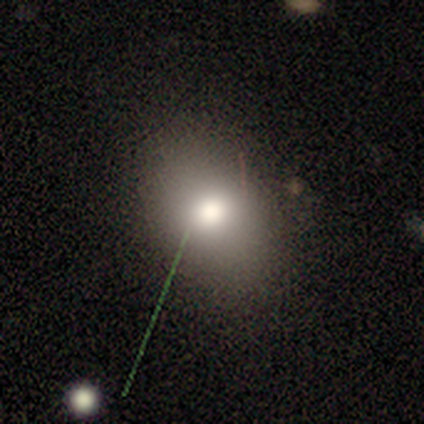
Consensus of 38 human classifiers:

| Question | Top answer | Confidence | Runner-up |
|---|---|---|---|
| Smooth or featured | smooth | 63% | star or artifact (21%) |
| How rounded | in between | 71% | round (25%) |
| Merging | none | 77% | minor disturbance (20%) |